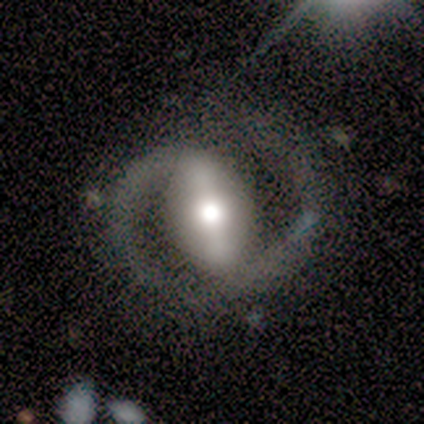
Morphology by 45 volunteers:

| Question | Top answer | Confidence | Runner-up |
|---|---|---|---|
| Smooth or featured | featured or disk | 96% | star or artifact (4%) |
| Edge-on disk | no | 93% | yes (7%) |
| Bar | strong | 90% | weak (5%) |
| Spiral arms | yes | 90% | no (10%) |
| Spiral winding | medium | 53% | loose (28%) |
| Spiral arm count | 2 | 86% | 1 (11%) |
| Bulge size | moderate | 60% | dominant (15%) |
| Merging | none | 60% | minor disturbance (23%) |